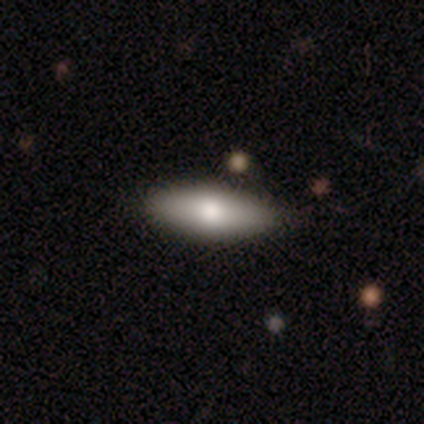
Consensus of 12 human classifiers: smooth_or_featured: smooth (p=0.58) [alt: featured or disk p=0.33]
how_rounded: in between (p=0.86) [alt: cigar-shaped p=0.14]
merging: none (p=0.91) [alt: minor disturbance p=0.09]